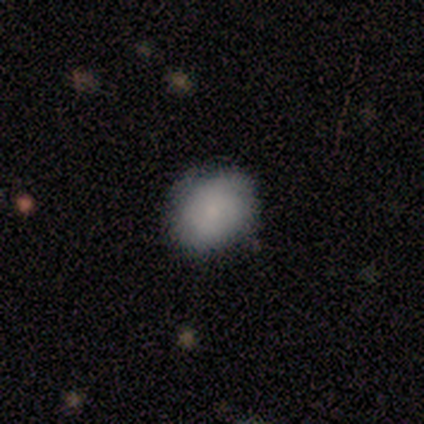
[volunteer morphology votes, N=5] Smooth or featured?
  - smooth: 60% *
  - featured or disk: 40%
  - star or artifact: 0%
How rounded?
  - round: 67% *
  - in between: 33%
  - cigar-shaped: 0%
Merging?
  - none: 100% *
  - minor disturbance: 0%
  - major disturbance: 0%
  - merger: 0%